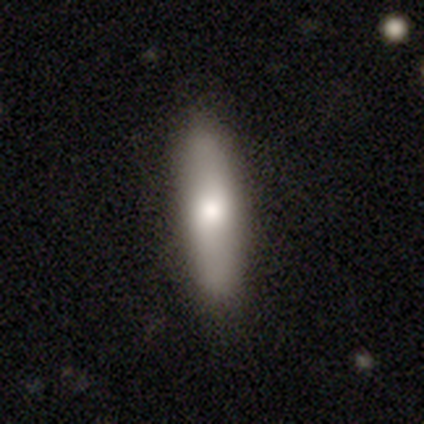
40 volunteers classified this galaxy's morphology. type=smooth (72%); roundness=cigar-shaped (72%); merging=none (95%).